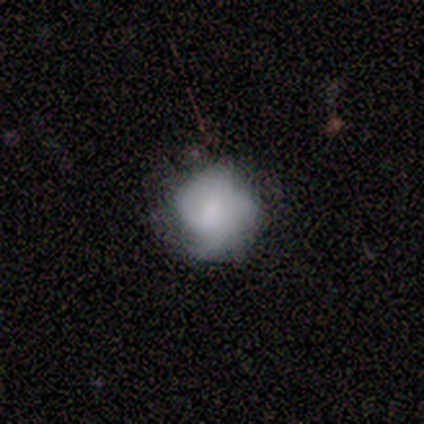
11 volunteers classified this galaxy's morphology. Smooth or featured: smooth — 55% (featured or disk — 36%)
How rounded: round — 100%
Merging: minor disturbance — 70% (none — 30%)